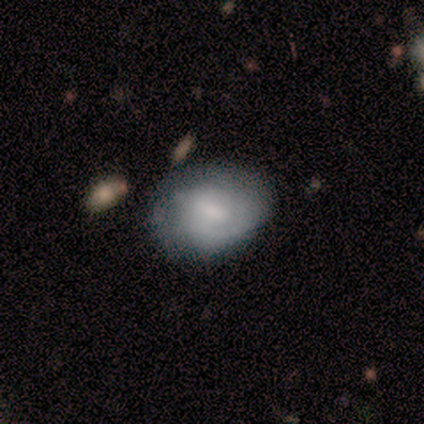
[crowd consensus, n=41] This is possibly a featured or disk galaxy (56%). It is clearly not viewed edge-on (100%). Bar: possibly weak (52%). Spiral arm pattern: clearly yes (91%). Spiral arm count: marginally can't tell (43%). Spiral winding: likely tight (62%). Central bulge: marginally moderate (35%, tied with none). Merging: likely none (68%).